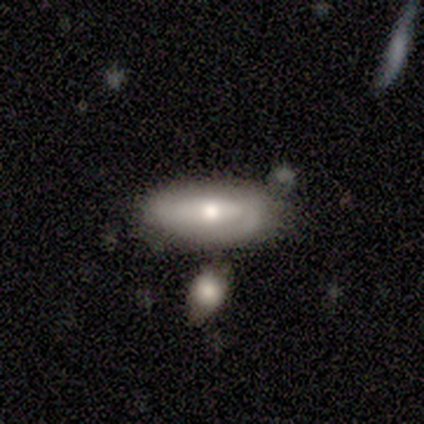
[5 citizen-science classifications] Q: Smooth or featured?
A: smooth (80%); runner-up: featured or disk (20%)
Q: How rounded?
A: in between (50%); runner-up: round (25%)
Q: Merging?
A: none (40%); runner-up: minor disturbance (20%)